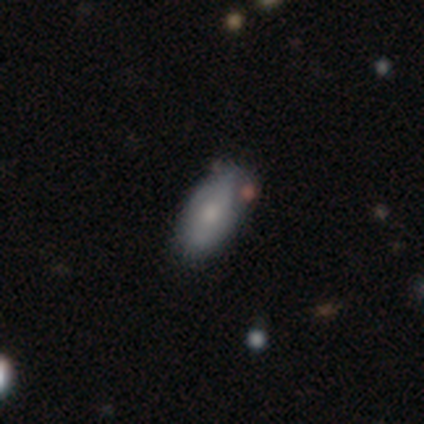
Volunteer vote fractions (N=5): Volunteers were most divided on "smooth or featured": smooth: 60%, featured or disk: 40%, star or artifact: 0%. More confident: how rounded — in between (100%); merging — none (80%).